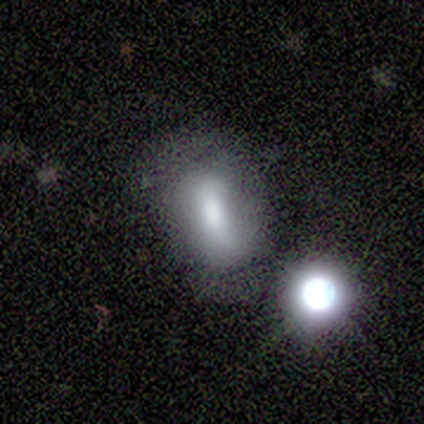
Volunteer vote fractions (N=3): A smooth galaxy with no disk features (33%, tied with featured or disk and star or artifact) that is round (100%).

Vote fractions:
- Smooth or featured? smooth: 33% (tied) / featured or disk: 33% (tied) / star or artifact: 33% (tied)
- How rounded? round: 100% / in between: 0% / cigar-shaped: 0%
- Merging? merger: 100% / none: 0% / minor disturbance: 0% / major disturbance: 0%